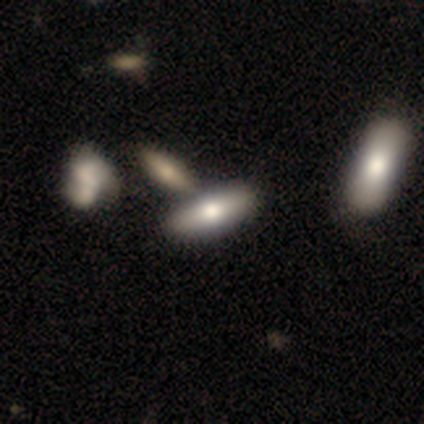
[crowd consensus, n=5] Morphology: type=smooth (60%); roundness=in between (100%); merging=merger (60%).